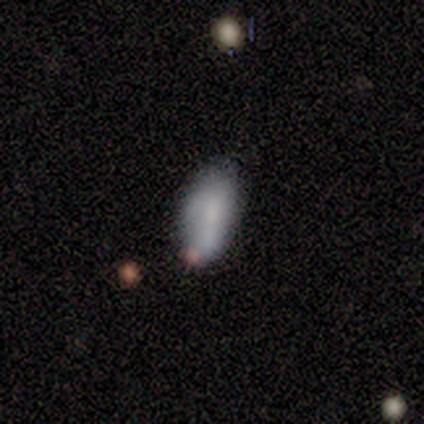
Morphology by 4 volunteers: This is clearly a smooth galaxy (100%). How rounded: clearly in between (100%). Merging: possibly none (50%).